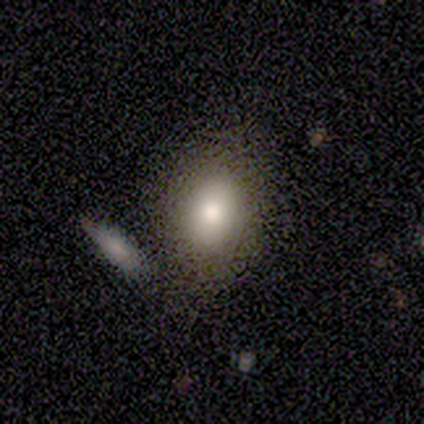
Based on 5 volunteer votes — A smooth galaxy with no disk features (100%) that is in between round and cigar-shaped (100%).

Vote fractions:
- Smooth or featured? smooth: 100% / featured or disk: 0% / star or artifact: 0%
- How rounded? in between: 100% / round: 0% / cigar-shaped: 0%
- Merging? none: 60% / merger: 40% / minor disturbance: 0% / major disturbance: 0%